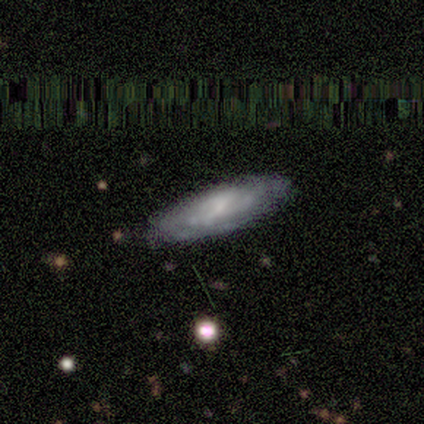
Smooth or featured? featured or disk (100%)
Edge-on disk? no (80%)
Bar? weak (50%, tied with no)
Spiral arms? yes (50%, tied with no)
Spiral winding? tight (50%, tied with medium)
Spiral arm count? can't tell (100%)
Bulge size? small (50%, tied with none)
Merging? none (60%)